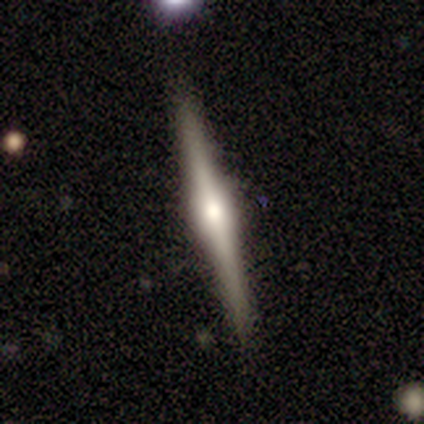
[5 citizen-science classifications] A featured or disk galaxy (100%) viewed edge-on (100%) with a rounded central bulge (60%).

Vote fractions:
- Smooth or featured? featured or disk: 100% / smooth: 0% / star or artifact: 0%
- Edge-on disk? yes: 100% / no: 0%
- Edge-on bulge? rounded: 60% / boxy: 40% / none: 0%
- Merging? none: 100% / minor disturbance: 0% / major disturbance: 0% / merger: 0%